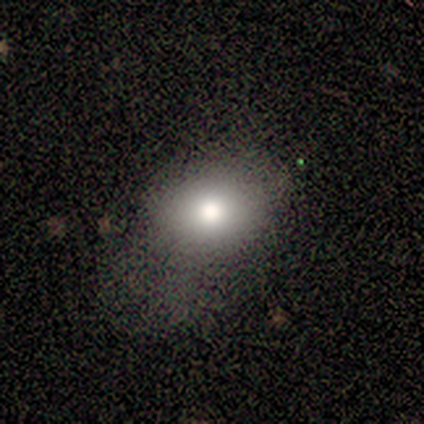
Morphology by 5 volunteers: smooth 80%, featured or disk 20%, star or artifact 0%. Down the decision tree: how rounded — round (50%, tied with in between); merging — minor disturbance (80%).